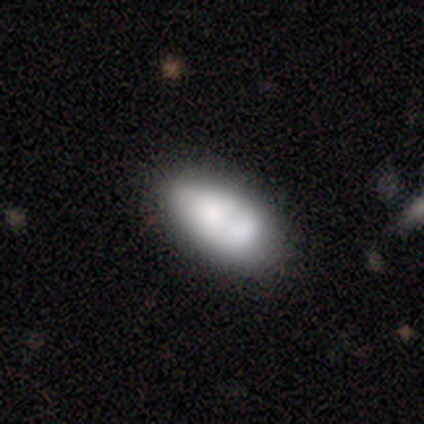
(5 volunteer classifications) This is clearly a smooth galaxy (100%). How rounded: clearly in between (100%). Merging: clearly none (80%).